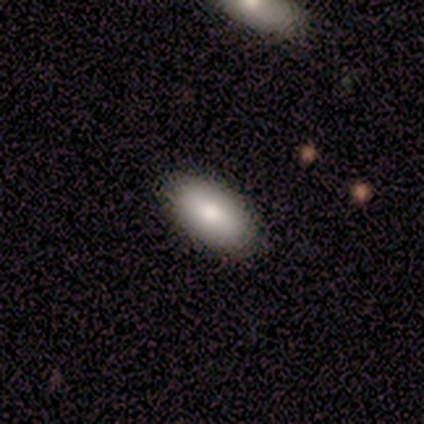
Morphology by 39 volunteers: A smooth galaxy with no disk features (87%) that is in between round and cigar-shaped (94%). Merging: none (84%).